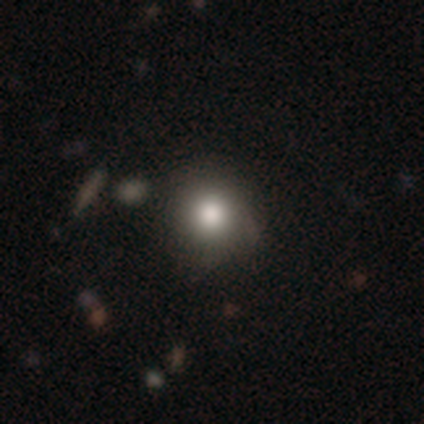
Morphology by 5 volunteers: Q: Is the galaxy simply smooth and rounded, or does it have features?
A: smooth — 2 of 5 (40%, tied with star or artifact).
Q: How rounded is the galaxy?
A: round — 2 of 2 (100%).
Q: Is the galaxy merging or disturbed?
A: none — 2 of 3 (67%).